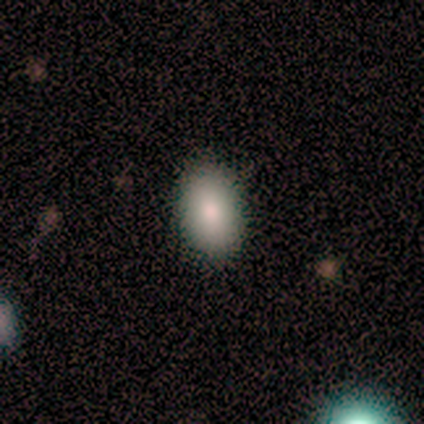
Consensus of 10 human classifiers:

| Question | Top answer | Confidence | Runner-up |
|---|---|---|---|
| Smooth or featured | smooth | 80% | star or artifact (20%) |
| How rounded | in between | 100% | — |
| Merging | none | 88% | merger (12%) |